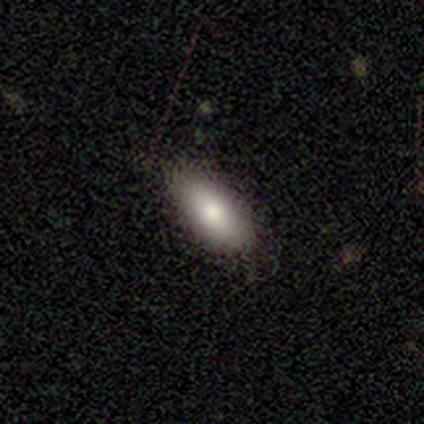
This is clearly a smooth galaxy (80%). How rounded: likely in between (75%). Merging: clearly none (100%).